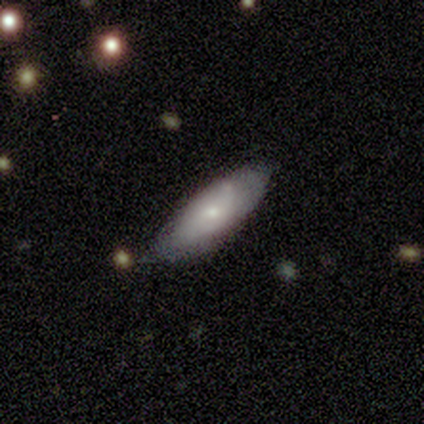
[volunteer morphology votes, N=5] This appears to be a featured or disk galaxy (60%) with no bar (100%), tight (50%, tied with loose) spiral arms (67%) and a small central bulge (100%). Merging: none (50%, tied with minor disturbance).